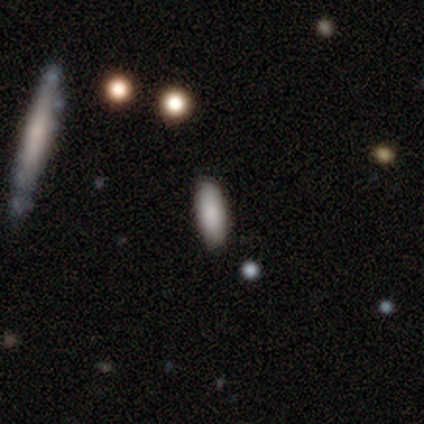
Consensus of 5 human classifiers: star or artifact 60%, smooth 40%, featured or disk 0%.